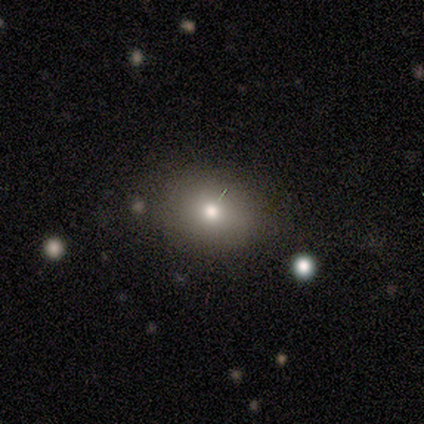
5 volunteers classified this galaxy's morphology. Smooth or featured?
  - smooth: 40% * (tied)
  - featured or disk: 40% * (tied)
  - star or artifact: 20%
How rounded?
  - round: 50% * (tied)
  - in between: 50% * (tied)
  - cigar-shaped: 0%
Merging?
  - none: 50% *
  - minor disturbance: 25%
  - merger: 25%
  - major disturbance: 0%